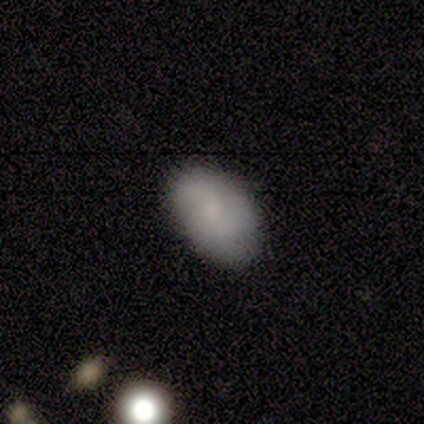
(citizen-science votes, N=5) smooth_or_featured: smooth (p=0.80) [alt: featured or disk p=0.20]
how_rounded: in between (p=1.00)
merging: none (p=0.60) [alt: minor disturbance p=0.40]